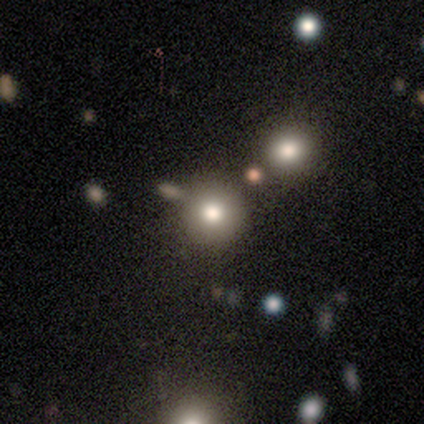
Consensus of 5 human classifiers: Volunteers were most divided on "merging": none: 75%, major disturbance: 25%, minor disturbance: 0%, merger: 0%. More confident: how rounded — round (100%); smooth or featured — smooth (80%).